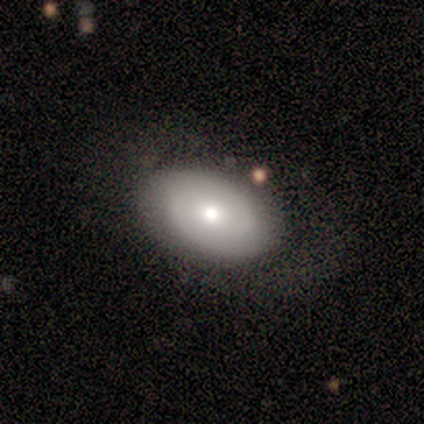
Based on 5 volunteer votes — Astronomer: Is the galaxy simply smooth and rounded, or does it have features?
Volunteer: smooth — 60% (runner-up: featured or disk, 40%).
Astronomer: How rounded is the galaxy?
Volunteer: in between — 100%.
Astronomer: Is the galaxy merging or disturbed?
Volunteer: none — 60%.